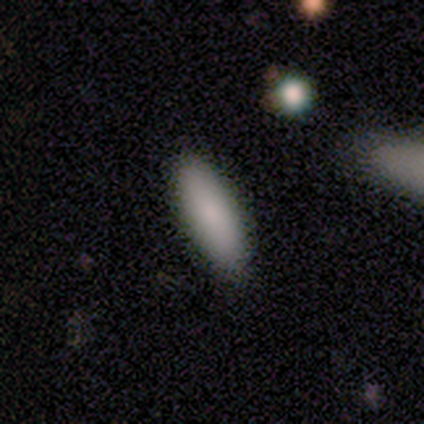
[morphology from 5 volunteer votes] smooth 100%, featured or disk 0%, star or artifact 0%. Down the decision tree: how rounded — in between (60%); merging — none (60%).